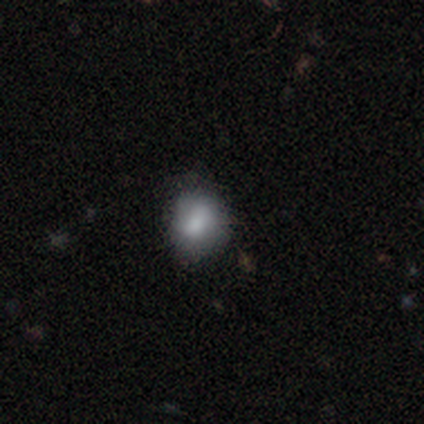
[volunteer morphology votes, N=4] smooth_or_featured: smooth (p=1.00)
how_rounded: round (p=1.00)
merging: none (p=0.75) [alt: minor disturbance p=0.25]